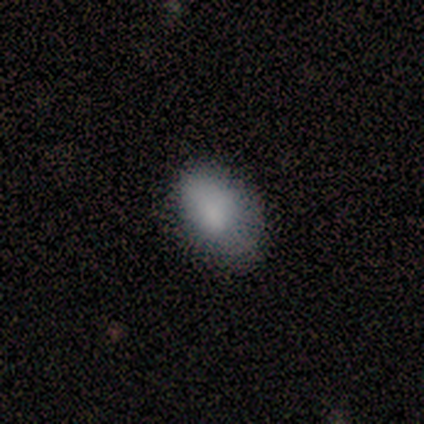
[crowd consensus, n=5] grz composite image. It shows a smooth galaxy with no disk features (100%) that is in between round and cigar-shaped (100%). Merging: minor disturbance (60%).